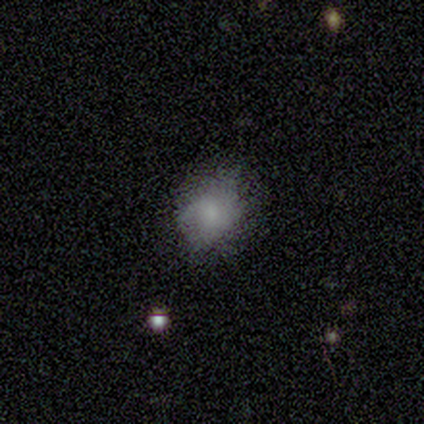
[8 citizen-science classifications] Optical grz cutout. It shows a smooth galaxy with no disk features (88%) that is round (100%). Merging: none (62%).